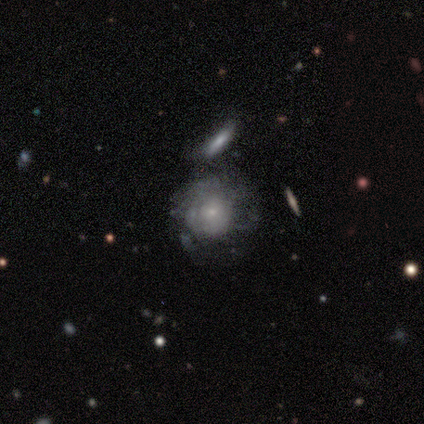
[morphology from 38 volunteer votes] Volunteers were most divided on "spiral arms" (2-way tie): yes: 50%, no: 50%. Remaining: edge-on disk — no (95%); spiral arm count — can't tell (90%); bar — no (90%); spiral winding — tight (80%); bulge size — small (80%); smooth or featured — featured or disk (55%); merging — none (33%).